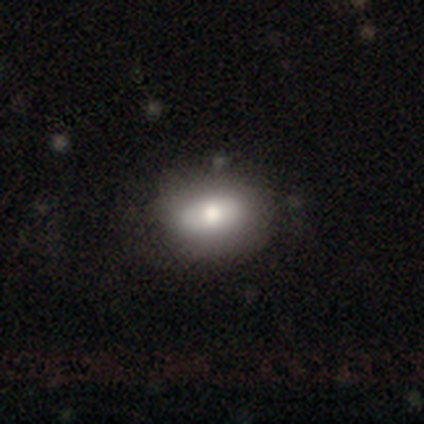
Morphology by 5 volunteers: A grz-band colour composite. It shows a smooth galaxy with no disk features (80%) that is in between round and cigar-shaped (75%). Merging: none (80%).